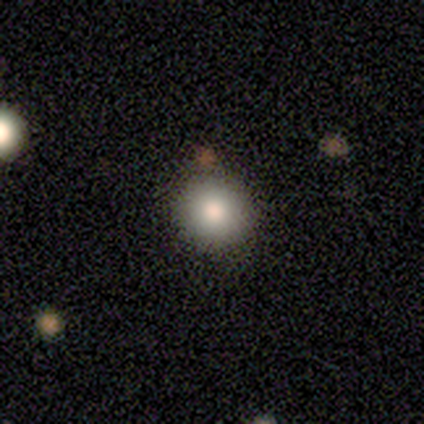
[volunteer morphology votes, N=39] type=smooth (74%); roundness=round (90%); merging=none (60%).